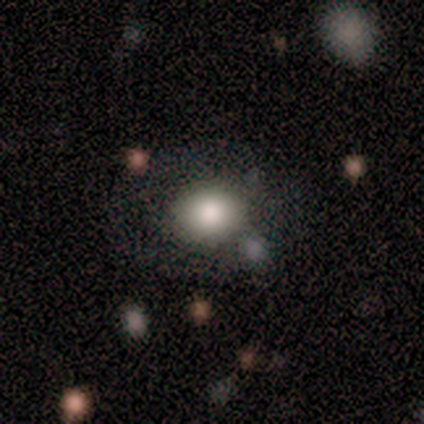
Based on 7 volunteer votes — Morphology: type=smooth (100%); roundness=round (86%); merging=none (86%).